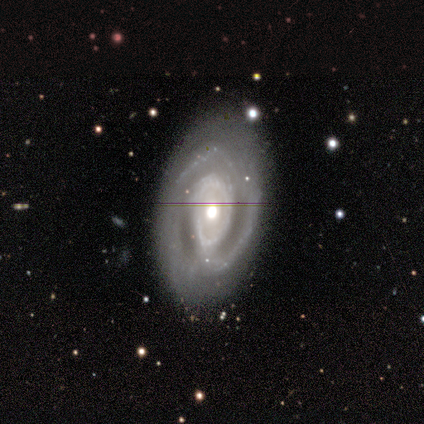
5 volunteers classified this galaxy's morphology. type=featured or disk (80%); edge-on=no (100%); bar=no (75%); spiral arms=yes (100%); winding=medium (75%); arm count=2 (100%); bulge=moderate (75%); merging=none (100%).